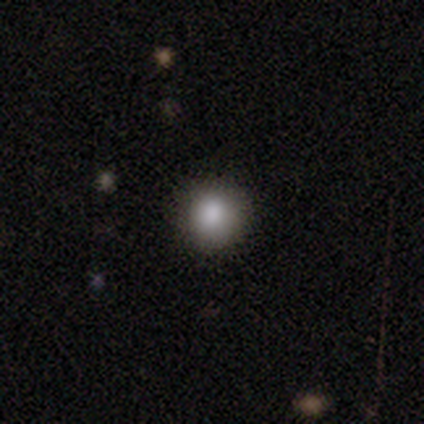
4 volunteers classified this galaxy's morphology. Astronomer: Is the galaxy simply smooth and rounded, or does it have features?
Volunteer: smooth — 75%.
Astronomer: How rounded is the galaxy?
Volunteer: round — 100%.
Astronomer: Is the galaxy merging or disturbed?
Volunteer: none — 100%.